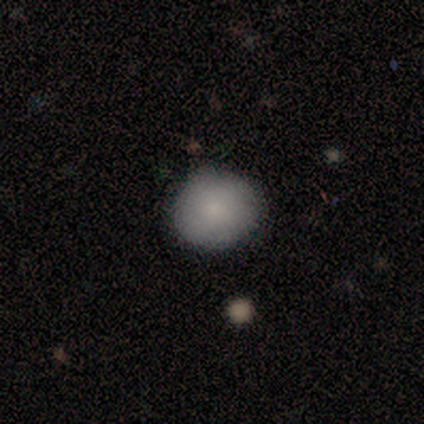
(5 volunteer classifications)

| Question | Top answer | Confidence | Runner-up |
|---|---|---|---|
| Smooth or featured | smooth | 80% | star or artifact (20%) |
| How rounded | round | 100% | — |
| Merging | none | 100% | — |